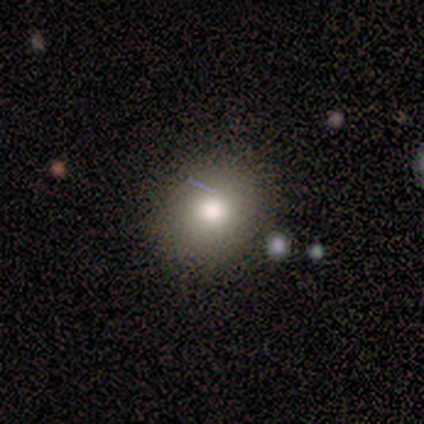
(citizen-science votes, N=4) smooth-or-featured: smooth: 75% | featured or disk: 25% | star or artifact: 0%
  how-rounded: round: 100% | in between: 0% | cigar-shaped: 0%
  merging: none: 75% | major disturbance: 25% | minor disturbance: 0% | merger: 0%